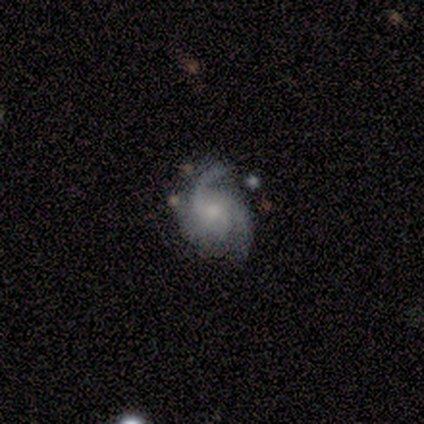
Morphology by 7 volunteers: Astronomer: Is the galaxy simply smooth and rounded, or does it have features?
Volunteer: featured or disk — 86%.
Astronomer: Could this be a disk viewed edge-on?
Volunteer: no — 100%.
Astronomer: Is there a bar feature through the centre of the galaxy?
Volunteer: no — 83%.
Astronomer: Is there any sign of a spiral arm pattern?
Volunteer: yes — 100%.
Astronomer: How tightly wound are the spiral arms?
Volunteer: loose — 50% (runner-up: medium, 33%).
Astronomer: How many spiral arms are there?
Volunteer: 3 — 50% (runner-up: 2, 33%).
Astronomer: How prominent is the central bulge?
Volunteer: moderate — 50%, tied with small at 50%.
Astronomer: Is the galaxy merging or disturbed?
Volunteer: none — 67%.